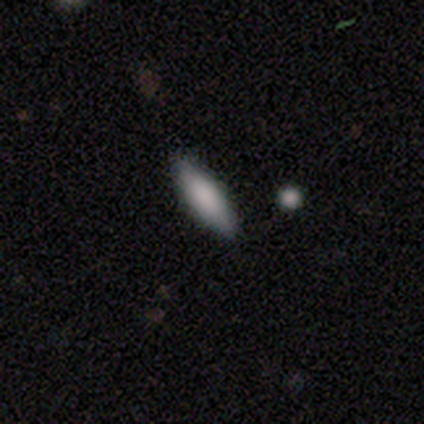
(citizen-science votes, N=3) This appears to be a star or artifact, not a galaxy (67%).